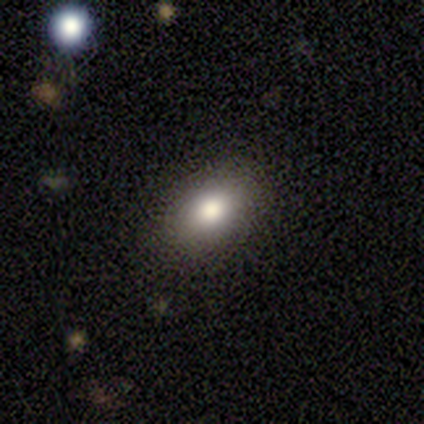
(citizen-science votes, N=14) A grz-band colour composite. It shows a smooth galaxy with no disk features (79%) that is in between round and cigar-shaped (82%). Merging: none (86%).